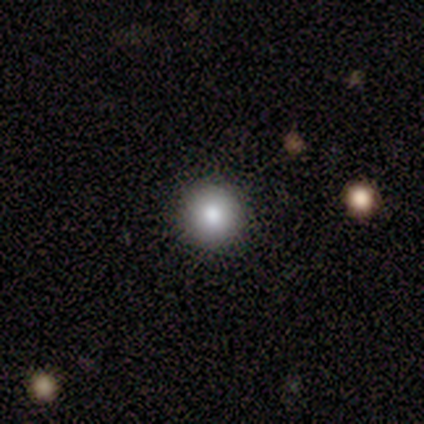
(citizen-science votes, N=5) Morphology: type=smooth (80%); roundness=round (100%); merging=none (100%).